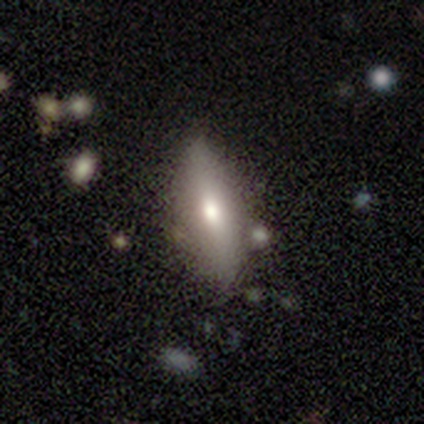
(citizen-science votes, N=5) A smooth galaxy with no disk features (80%) that is in between round and cigar-shaped (50%).

Vote fractions:
- Smooth or featured? smooth: 80% / star or artifact: 20% / featured or disk: 0%
- How rounded? in between: 50% / round: 25% / cigar-shaped: 25%
- Merging? none: 75% / major disturbance: 25% / minor disturbance: 0% / merger: 0%